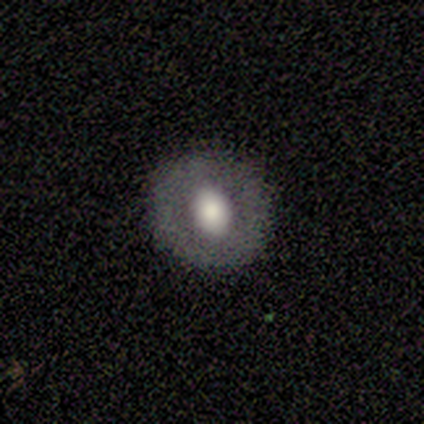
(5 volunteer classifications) A smooth galaxy with no disk features (60%) that is round (67%). Merging: none (40%, tied with minor disturbance).